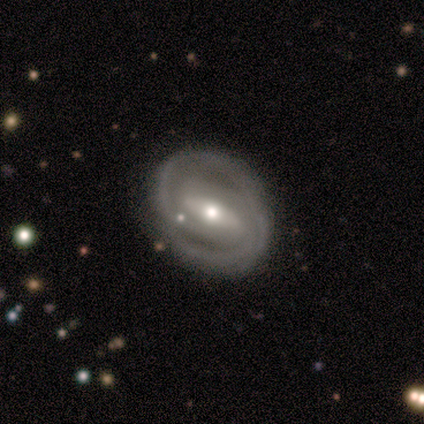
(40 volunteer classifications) featured or disk 85%, smooth 10%, star or artifact 5%. Down the decision tree: edge-on disk — no (91%); bar — strong (61%); spiral arms — yes (84%); spiral arm count — 2 (77%); spiral winding — tight (65%); bulge size — moderate (71%); merging — none (74%).